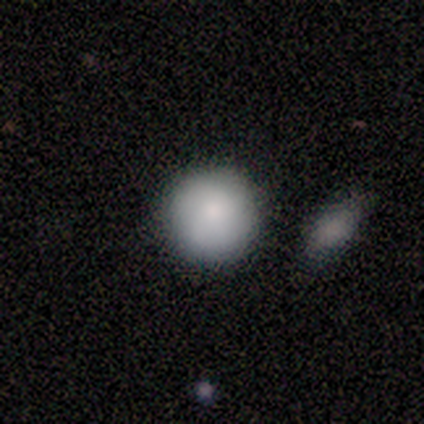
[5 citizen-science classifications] Smooth or featured? 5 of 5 (100%) said smooth. How rounded? 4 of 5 (80%) said round. Merging? 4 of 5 (80%) said none.